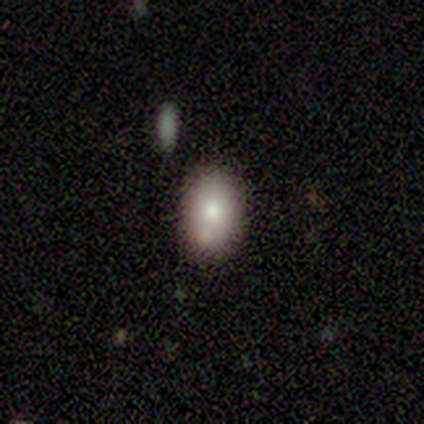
A smooth galaxy with no disk features (80%) that is in between round and cigar-shaped (100%).

Vote fractions:
- Smooth or featured? smooth: 80% / featured or disk: 20% / star or artifact: 0%
- How rounded? in between: 100% / round: 0% / cigar-shaped: 0%
- Merging? none: 80% / minor disturbance: 20% / major disturbance: 0% / merger: 0%